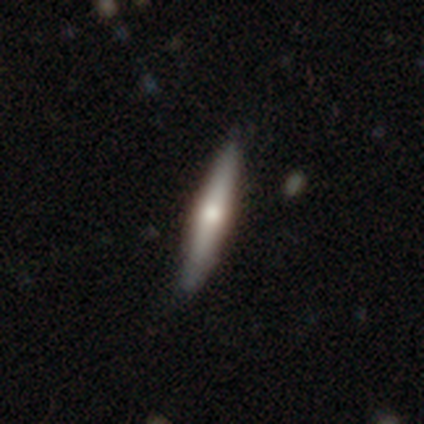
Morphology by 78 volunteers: Smooth or featured? featured or disk (49%)
Edge-on disk? yes (87%)
Edge-on bulge? rounded (76%)
Merging? none (45%)